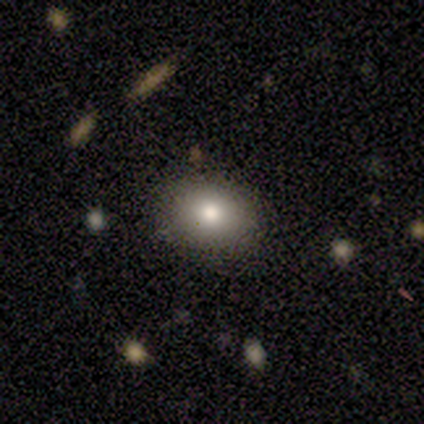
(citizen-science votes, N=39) This appears to be a smooth galaxy with no disk features (67%) that is round (54%). Merging: none (92%).